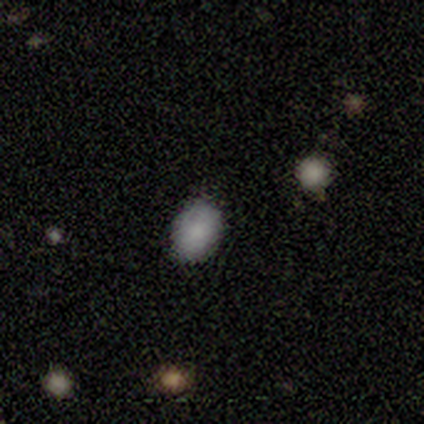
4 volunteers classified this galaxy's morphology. Q: Smooth or featured?
A: smooth (75%); runner-up: star or artifact (25%)
Q: How rounded?
A: in between (100%)
Q: Merging?
A: none (100%)